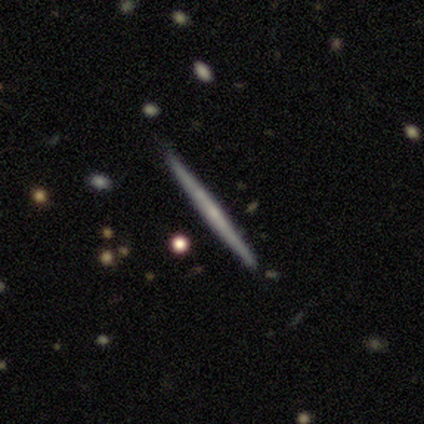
Q: Smooth or featured?
A: featured or disk (75%); runner-up: smooth (25%)
Q: Edge-on disk?
A: yes (100%)
Q: Edge-on bulge?
A: none (100%)
Q: Merging?
A: none (100%)